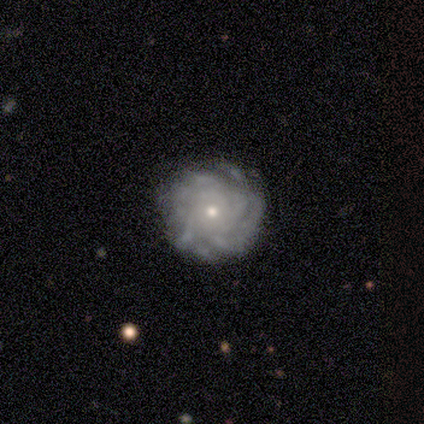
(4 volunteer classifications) Overall: featured or disk (100%). Edge-on disk: no (100%). Bar: no (100%). Spiral arms: yes (100%). Spiral arm count: more than 4 (50%; 3 25%). Spiral winding: medium (75%). Bulge size: small (100%). Merging: none (75%).